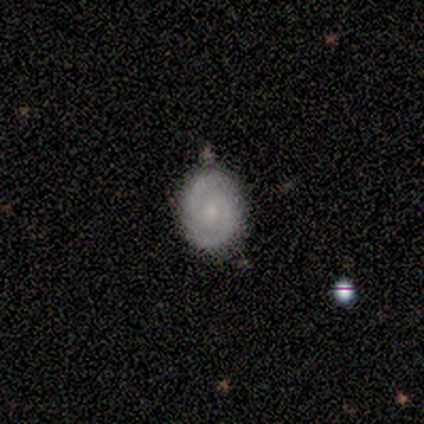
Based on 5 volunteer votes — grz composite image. It shows a featured or disk galaxy (60%) with no bar (67%), 2 (100%) medium (67%) spiral arms (100%) and a small central bulge (67%). Merging: none (60%).